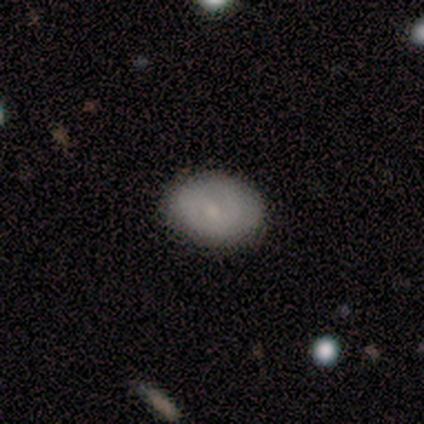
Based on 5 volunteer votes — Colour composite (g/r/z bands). It shows a smooth galaxy with no disk features (60%) that is in between round and cigar-shaped (100%). Merging: none (100%).